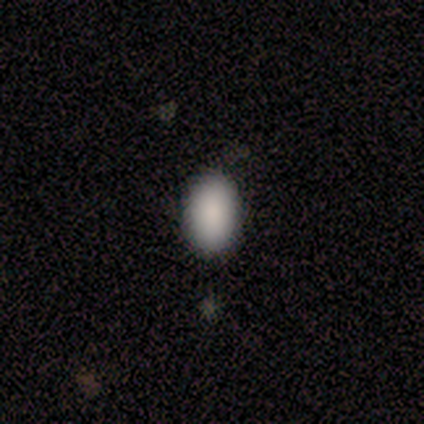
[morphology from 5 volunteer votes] Q: Smooth or featured?
A: smooth (100%)
Q: How rounded?
A: in between (100%)
Q: Merging?
A: none (100%)